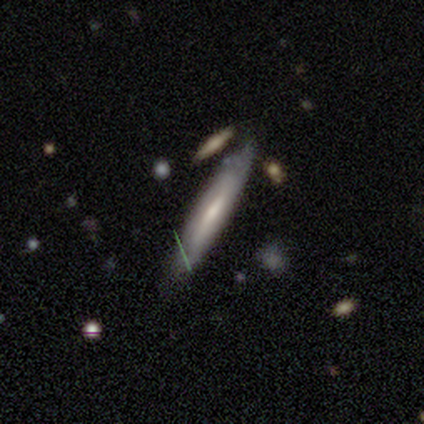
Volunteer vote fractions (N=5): A featured or disk galaxy (60%) viewed edge-on (67%) with a boxy central bulge (50%, tied with none). Merging: none (40%, tied with minor disturbance).